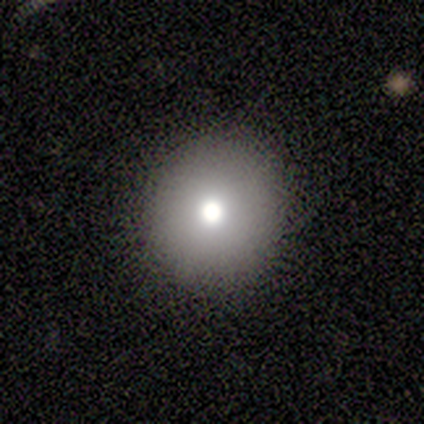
Smooth or featured? smooth (80%)
How rounded? round (100%)
Merging? none (60%)